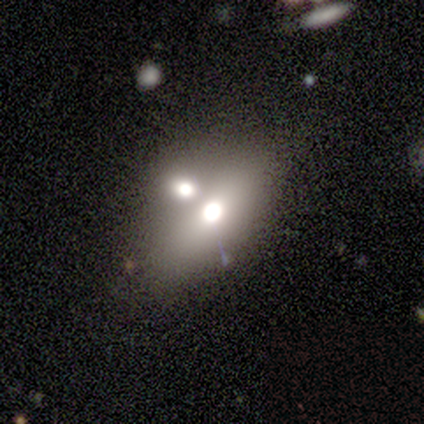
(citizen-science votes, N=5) Q: Smooth or featured?
A: smooth (60%); runner-up: featured or disk (20%)
Q: How rounded?
A: in between (67%); runner-up: cigar-shaped (33%)
Q: Merging?
A: merger (75%); runner-up: none (25%)